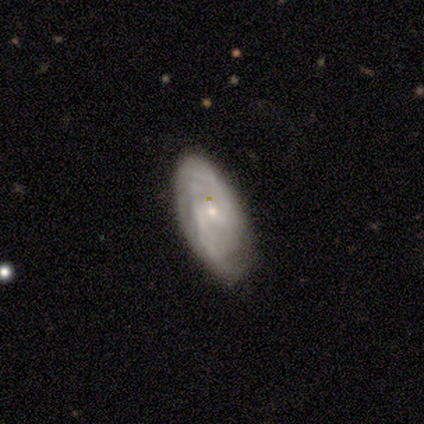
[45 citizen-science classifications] Q: Smooth or featured?
A: featured or disk (73%); runner-up: smooth (18%)
Q: Edge-on disk?
A: no (97%); runner-up: yes (3%)
Q: Bar?
A: no (56%); runner-up: weak (41%)
Q: Spiral arms?
A: yes (84%); runner-up: no (16%)
Q: Spiral winding?
A: medium (48%); runner-up: tight (30%)
Q: Spiral arm count?
A: 2 (63%); runner-up: can't tell (30%)
Q: Bulge size?
A: small (78%); runner-up: moderate (19%)
Q: Merging?
A: none (59%); runner-up: minor disturbance (27%)